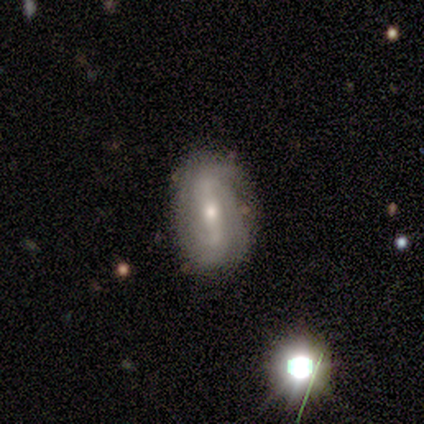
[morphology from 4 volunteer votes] Overall: featured or disk (100%). Edge-on disk: no (100%). Bar: weak (100%). Spiral arms: yes (75%). Spiral arm count: can't tell (67%; 2 33%). Spiral winding: tight (67%; loose 33%). Bulge size: moderate (50%, tied with small). Merging: none (100%).